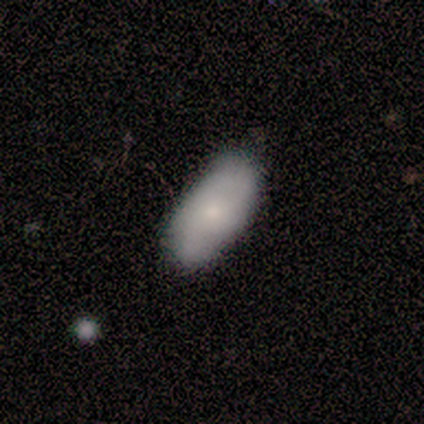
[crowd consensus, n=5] A smooth galaxy with no disk features (40%, tied with featured or disk) that is in between round and cigar-shaped (100%). Merging: none (75%).